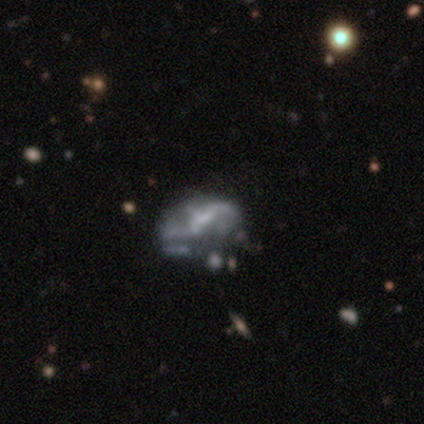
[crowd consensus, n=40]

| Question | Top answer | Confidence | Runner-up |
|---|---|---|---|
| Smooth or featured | featured or disk | 78% | smooth (20%) |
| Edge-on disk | no | 100% | — |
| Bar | weak | 48% | no (32%) |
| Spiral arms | yes | 58% | no (42%) |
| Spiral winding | loose | 78% | medium (17%) |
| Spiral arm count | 2 | 67% | 1 (17%) |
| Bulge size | small | 39% | none (35%) |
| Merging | major disturbance | 31% | minor disturbance (18%) |